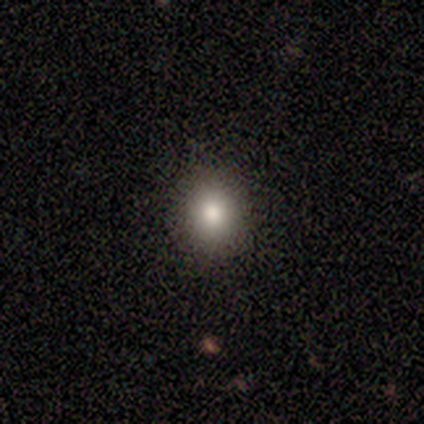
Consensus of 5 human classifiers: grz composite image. It shows a smooth galaxy with no disk features (80%) that is round (75%). Merging: none (100%).